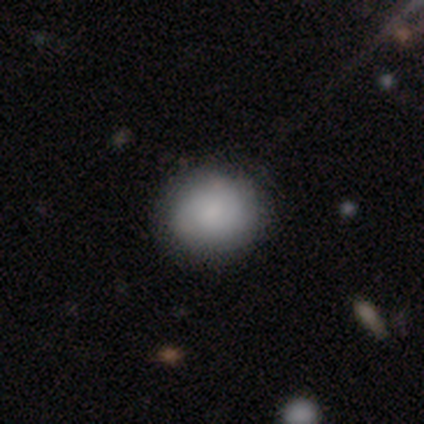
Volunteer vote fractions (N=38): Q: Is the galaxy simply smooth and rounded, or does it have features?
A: smooth — 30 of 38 (79%).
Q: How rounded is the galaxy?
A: round — 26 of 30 (87%).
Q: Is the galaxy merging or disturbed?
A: none — 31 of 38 (82%).